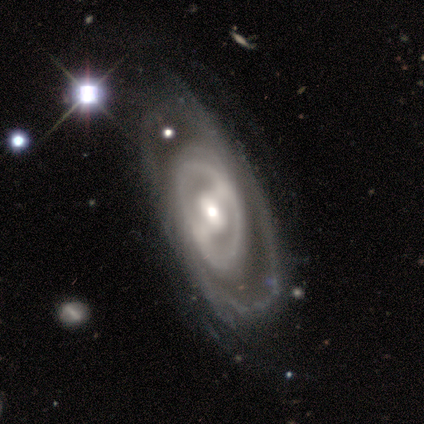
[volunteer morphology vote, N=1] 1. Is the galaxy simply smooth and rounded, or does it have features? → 100% smooth, 0% featured or disk, 0% star or artifact.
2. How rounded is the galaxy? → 100% in between, 0% round, 0% cigar-shaped.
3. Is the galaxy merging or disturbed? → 100% none, 0% minor disturbance, 0% major disturbance, 0% merger.